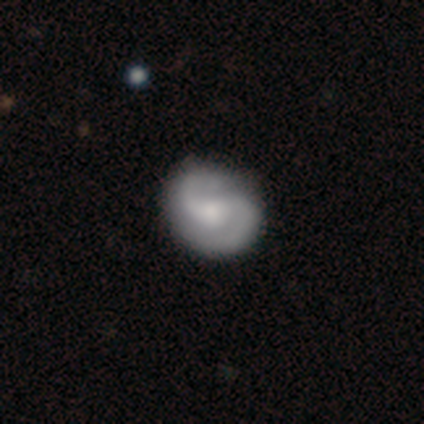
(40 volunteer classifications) featured or disk 88%, smooth 12%, star or artifact 0%. Down the decision tree: edge-on disk — no (97%); bar — no (59%); spiral arms — yes (94%); spiral arm count — 2 (100%); spiral winding — medium (50%); bulge size — moderate (50%); merging — none (57%).